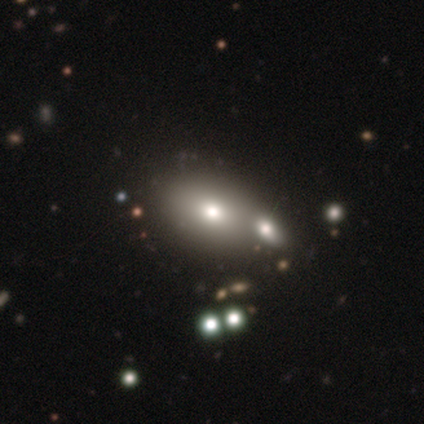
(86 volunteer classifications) This is likely a smooth galaxy (71%). How rounded: clearly in between (89%). Merging: possibly none (47%).